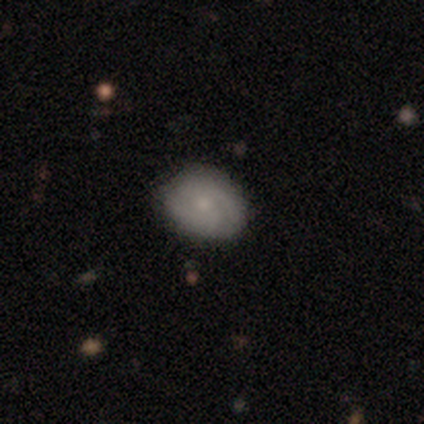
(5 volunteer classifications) Overall: smooth (60%; featured or disk 40%). How rounded: round (67%; in between 33%). Merging: none (80%).